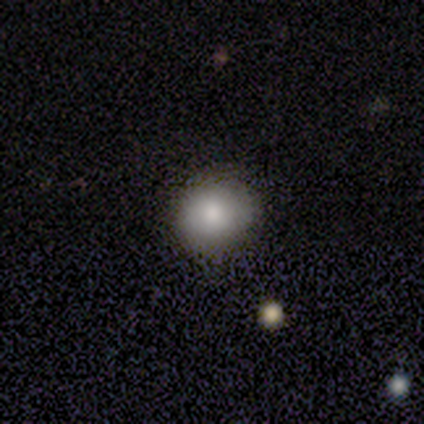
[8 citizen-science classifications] A smooth galaxy with no disk features (75%) that is round (100%).

Vote fractions:
- Smooth or featured? smooth: 75% / featured or disk: 12% / star or artifact: 12%
- How rounded? round: 100% / in between: 0% / cigar-shaped: 0%
- Merging? none: 86% / minor disturbance: 14% / major disturbance: 0% / merger: 0%